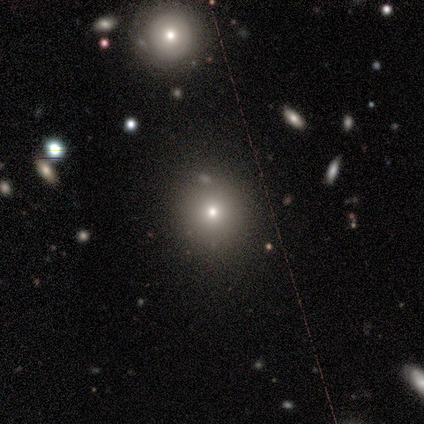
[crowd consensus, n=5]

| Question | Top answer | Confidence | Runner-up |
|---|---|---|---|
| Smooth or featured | smooth | 80% | star or artifact (20%) |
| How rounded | round | 100% | — |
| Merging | none | 100% | — |